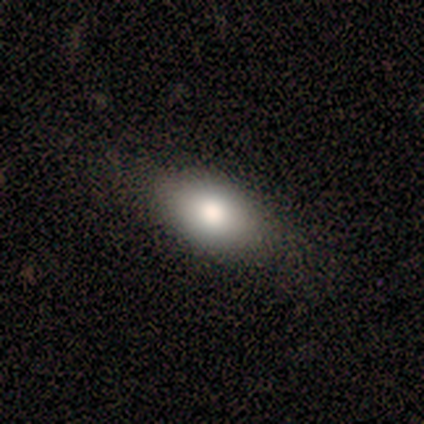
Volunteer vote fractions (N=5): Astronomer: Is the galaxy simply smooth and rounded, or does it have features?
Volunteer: smooth — 100%.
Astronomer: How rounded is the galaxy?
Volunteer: in between — 100%.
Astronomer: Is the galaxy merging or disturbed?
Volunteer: none — 80%.